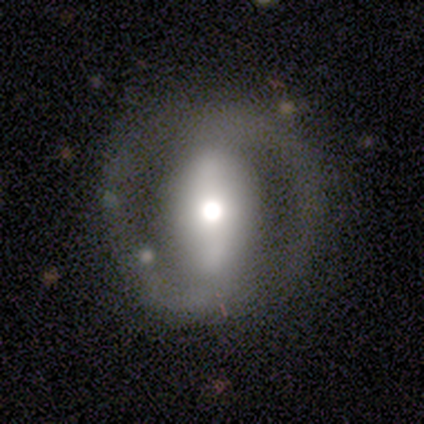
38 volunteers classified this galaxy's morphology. smooth_or_featured: featured or disk (p=0.84) [alt: smooth p=0.11]
disk_edge_on: no (p=0.97) [alt: yes p=0.03]
bar: strong (p=0.71) [alt: weak p=0.16]
has_spiral_arms: yes (p=0.71) [alt: no p=0.29]
spiral_winding: medium (p=0.36) [tied with: loose p=0.36]
spiral_arm_count: 2 (p=1.00)
bulge_size: moderate (p=0.65) [alt: large p=0.23]
merging: none (p=0.81) [alt: minor disturbance p=0.14]